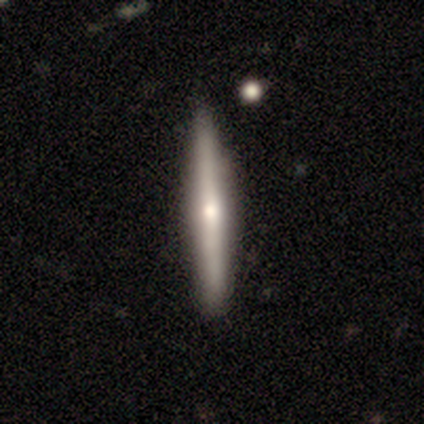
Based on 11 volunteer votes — smooth-or-featured: featured or disk: 64% | smooth: 36% | star or artifact: 0%
  disk-edge-on: yes: 100% | no: 0%
    edge-on-bulge: rounded: 71% | none: 29% | boxy: 0%
  merging: none: 73% | minor disturbance: 18% | major disturbance: 9% | merger: 0%